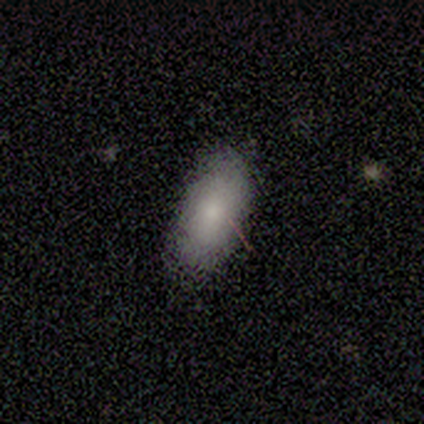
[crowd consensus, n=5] Volunteers were most divided on "merging": none: 75%, minor disturbance: 25%, major disturbance: 0%, merger: 0%. More confident: how rounded — in between (100%); smooth or featured — smooth (80%).